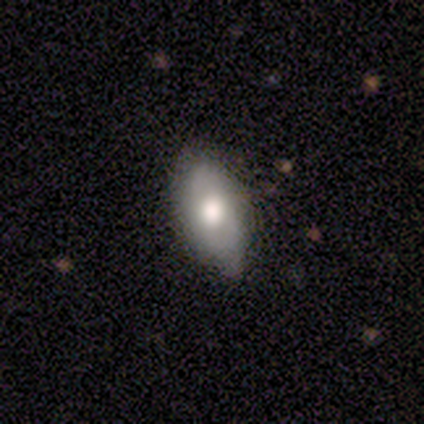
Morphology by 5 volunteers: Smooth or featured? 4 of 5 (80%) said smooth. How rounded? 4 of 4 (100%) said in between. Merging? 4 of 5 (80%) said none.